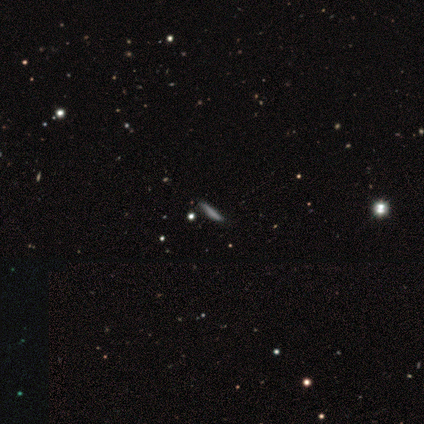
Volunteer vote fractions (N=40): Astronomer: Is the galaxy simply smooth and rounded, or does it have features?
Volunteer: smooth — 70%.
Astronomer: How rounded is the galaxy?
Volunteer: cigar-shaped — 82%.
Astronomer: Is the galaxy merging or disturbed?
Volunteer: none — 45%.